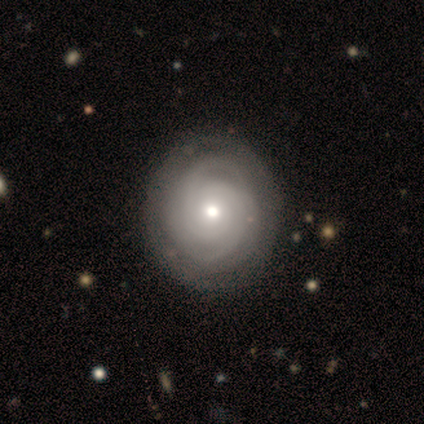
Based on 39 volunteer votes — Volunteers were most divided on "spiral arm count": can't tell: 33%, 3: 28%, 2: 25%, 4: 11%, more than 4: 3%, 1: 0%. More confident: edge-on disk — no (100%); spiral arms — yes (100%); smooth or featured — featured or disk (92%); bar — no (89%); spiral winding — tight (89%); merging — none (67%); bulge size — moderate (64%).